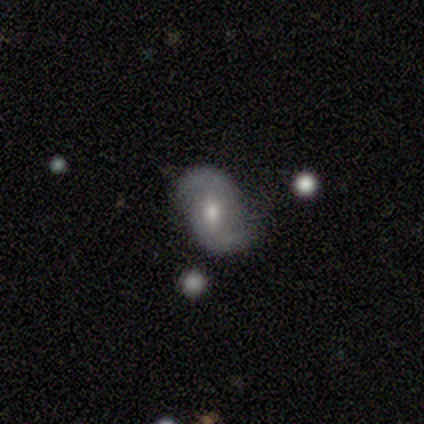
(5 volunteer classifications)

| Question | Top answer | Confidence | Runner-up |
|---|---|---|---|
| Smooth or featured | featured or disk | 80% | smooth (20%) |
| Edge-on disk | no | 100% | — |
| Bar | no | 75% | weak (25%) |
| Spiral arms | yes | 100% | — |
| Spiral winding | medium | 50% | tight (25%) |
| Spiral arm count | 2 | 50% | tied: can't tell (50%) |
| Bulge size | moderate | 100% | — |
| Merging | none | 80% | major disturbance (20%) |